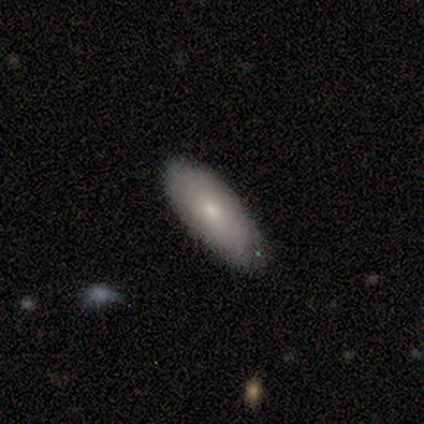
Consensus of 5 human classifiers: smooth 100%, featured or disk 0%, star or artifact 0%. Down the decision tree: how rounded — in between (100%); merging — none (100%).